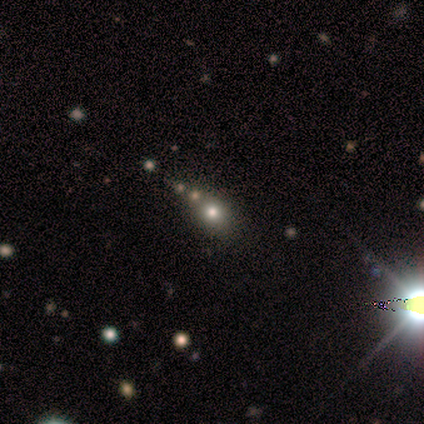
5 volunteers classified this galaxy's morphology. This is clearly a star or artifact rather than a galaxy (80%).